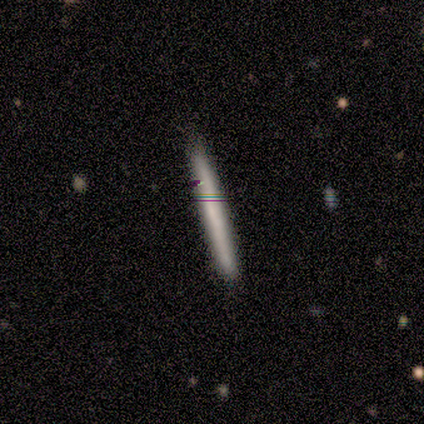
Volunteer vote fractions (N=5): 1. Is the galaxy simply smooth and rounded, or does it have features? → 100% smooth, 0% featured or disk, 0% star or artifact.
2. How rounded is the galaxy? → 80% cigar-shaped, 20% in between, 0% round.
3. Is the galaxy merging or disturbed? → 80% none, 20% minor disturbance, 0% major disturbance, 0% merger.